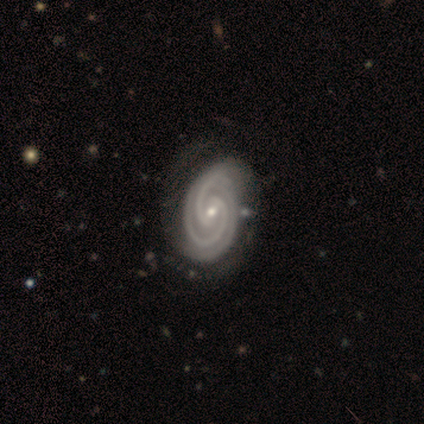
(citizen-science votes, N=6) Smooth or featured?
  - featured or disk: 83% *
  - star or artifact: 17%
  - smooth: 0%
Edge-on disk?
  - no: 100% *
  - yes: 0%
Bar?
  - weak: 60% *
  - strong: 20%
  - no: 20%
Spiral arms?
  - yes: 100% *
  - no: 0%
Spiral winding?
  - tight: 100% *
  - medium: 0%
  - loose: 0%
Spiral arm count?
  - 2: 60% *
  - 3: 40%
  - 1: 0%
  - 4: 0%
  - more than 4: 0%
  - can't tell: 0%
Bulge size?
  - small: 80% *
  - moderate: 20%
  - dominant: 0%
  - large: 0%
  - none: 0%
Merging?
  - none: 80% *
  - merger: 20%
  - minor disturbance: 0%
  - major disturbance: 0%